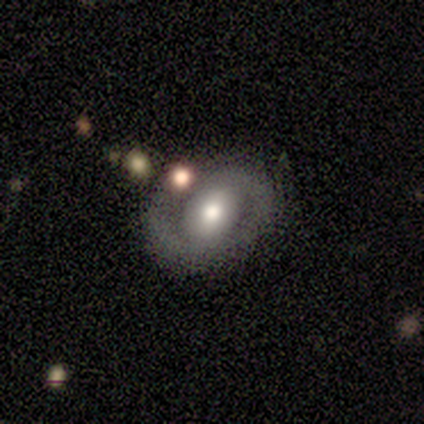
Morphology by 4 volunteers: This appears to be a featured or disk galaxy (75%) with no bar (67%), 1 (50%, tied with 2) tight (50%, tied with medium) spiral arms (67%) and a moderate central bulge (100%). Merging: none (67%).